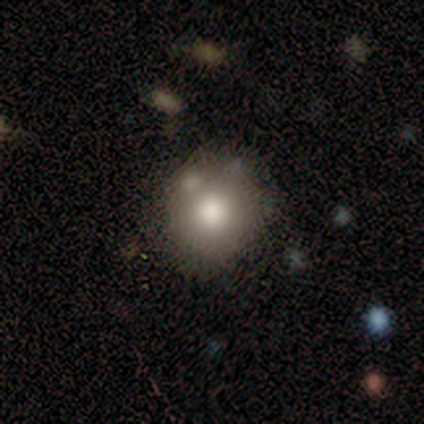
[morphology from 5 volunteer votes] A smooth galaxy with no disk features (80%) that is round (75%).

Vote fractions:
- Smooth or featured? smooth: 80% / featured or disk: 20% / star or artifact: 0%
- How rounded? round: 75% / in between: 25% / cigar-shaped: 0%
- Merging? none: 40% (tied) / minor disturbance: 40% (tied) / merger: 20% / major disturbance: 0%